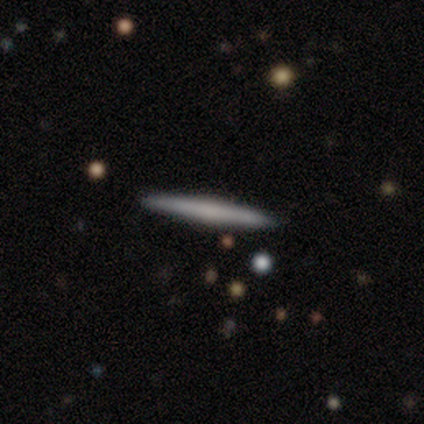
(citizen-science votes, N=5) A smooth galaxy with no disk features (60%) that is cigar-shaped (100%). Merging: none (100%).